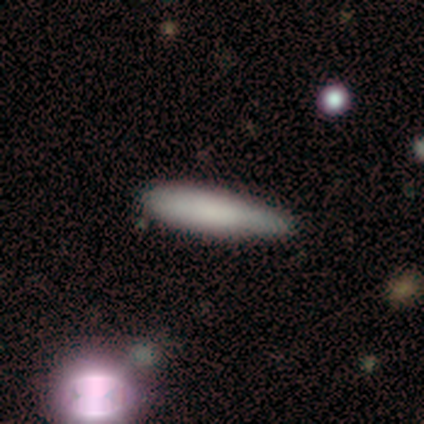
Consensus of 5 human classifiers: smooth 80%, featured or disk 20%, star or artifact 0%. Down the decision tree: how rounded — cigar-shaped (75%); merging — minor disturbance (60%).